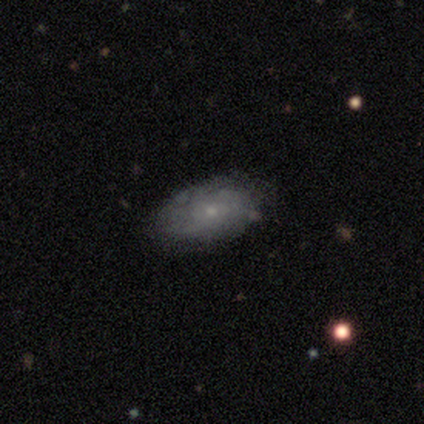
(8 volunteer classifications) A featured or disk galaxy (62%) with no bar (80%), tight (50%) spiral arms (80%) and a small central bulge (100%).

Vote fractions:
- Smooth or featured? featured or disk: 62% / smooth: 38% / star or artifact: 0%
- Edge-on disk? no: 100% / yes: 0%
- Bar? no: 80% / weak: 20% / strong: 0%
- Spiral arms? yes: 80% / no: 20%
- Spiral winding? tight: 50% / medium: 25% / loose: 25%
- Spiral arm count? can't tell: 75% / 2: 25% / 1: 0% / 3: 0% / 4: 0% / more than 4: 0%
- Bulge size? small: 100% / dominant: 0% / large: 0% / moderate: 0% / none: 0%
- Merging? none: 75% / minor disturbance: 25% / major disturbance: 0% / merger: 0%